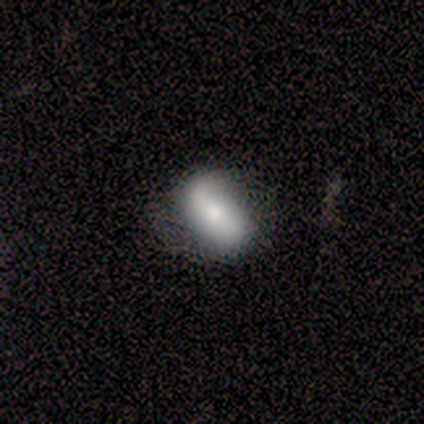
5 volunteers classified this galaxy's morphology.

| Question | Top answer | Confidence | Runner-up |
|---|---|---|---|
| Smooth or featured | smooth | 60% | featured or disk (40%) |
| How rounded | in between | 100% | — |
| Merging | none | 60% | minor disturbance (20%) |